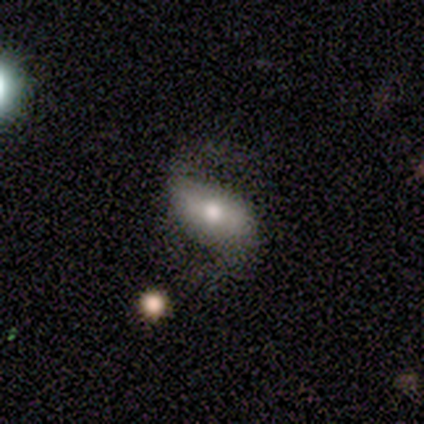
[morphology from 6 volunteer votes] Smooth or featured?
  - featured or disk: 67% *
  - smooth: 33%
  - star or artifact: 0%
Edge-on disk?
  - no: 100% *
  - yes: 0%
Bar?
  - strong: 50% * (tied)
  - weak: 50% * (tied)
  - no: 0%
Spiral arms?
  - yes: 100% *
  - no: 0%
Spiral winding?
  - medium: 50% * (tied)
  - loose: 50% * (tied)
  - tight: 0%
Spiral arm count?
  - 2: 100% *
  - 1: 0%
  - 3: 0%
  - 4: 0%
  - more than 4: 0%
  - can't tell: 0%
Bulge size?
  - moderate: 100% *
  - dominant: 0%
  - large: 0%
  - small: 0%
  - none: 0%
Merging?
  - none: 50% *
  - minor disturbance: 33%
  - major disturbance: 17%
  - merger: 0%